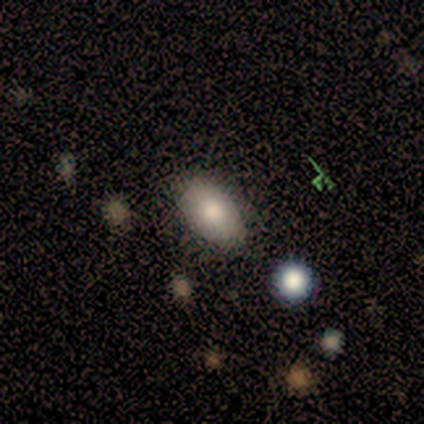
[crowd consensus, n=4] smooth-or-featured: smooth: 75% | featured or disk: 25% | star or artifact: 0%
  how-rounded: in between: 100% | round: 0% | cigar-shaped: 0%
  merging: none: 75% | minor disturbance: 25% | major disturbance: 0% | merger: 0%